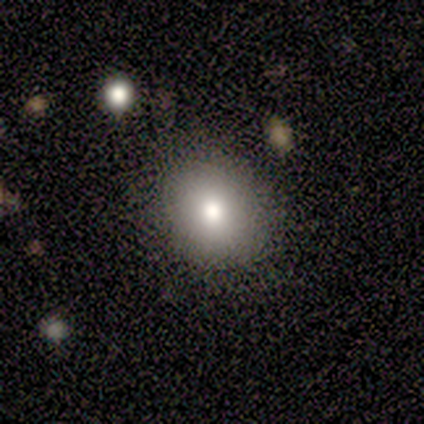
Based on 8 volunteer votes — Smooth or featured? 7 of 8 (88%) said smooth. How rounded? 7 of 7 (100%) said round. Merging? 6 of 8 (75%) said none.